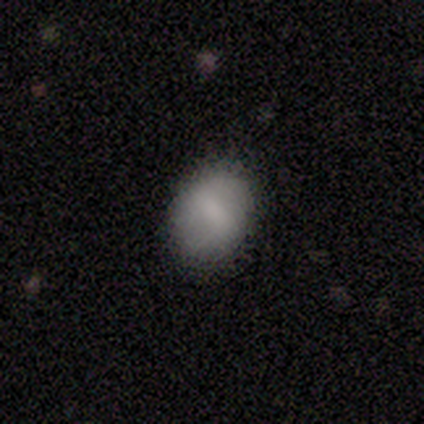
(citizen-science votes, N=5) A smooth galaxy with no disk features (80%) that is in between round and cigar-shaped (100%).

Vote fractions:
- Smooth or featured? smooth: 80% / featured or disk: 20% / star or artifact: 0%
- How rounded? in between: 100% / round: 0% / cigar-shaped: 0%
- Merging? none: 60% / minor disturbance: 40% / major disturbance: 0% / merger: 0%